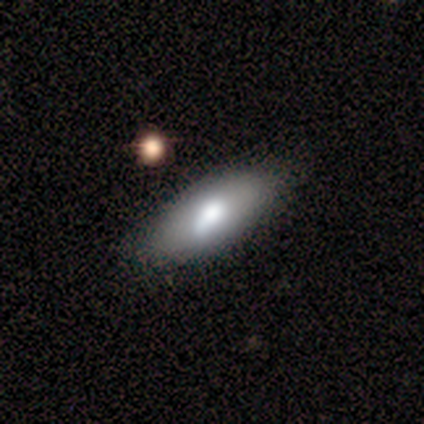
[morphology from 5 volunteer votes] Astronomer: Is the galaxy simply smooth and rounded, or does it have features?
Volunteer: smooth — 60% (runner-up: featured or disk, 40%).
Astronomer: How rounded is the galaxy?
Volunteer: in between — 67%.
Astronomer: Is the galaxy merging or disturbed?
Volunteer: none — 60% (runner-up: minor disturbance, 40%).